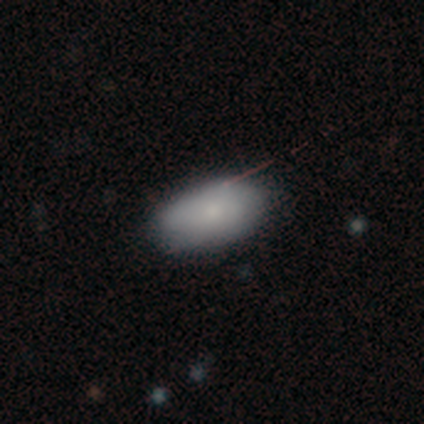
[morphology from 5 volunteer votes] A smooth galaxy with no disk features (60%) that is in between round and cigar-shaped (100%).

Vote fractions:
- Smooth or featured? smooth: 60% / featured or disk: 20% / star or artifact: 20%
- How rounded? in between: 100% / round: 0% / cigar-shaped: 0%
- Merging? none: 100% / minor disturbance: 0% / major disturbance: 0% / merger: 0%